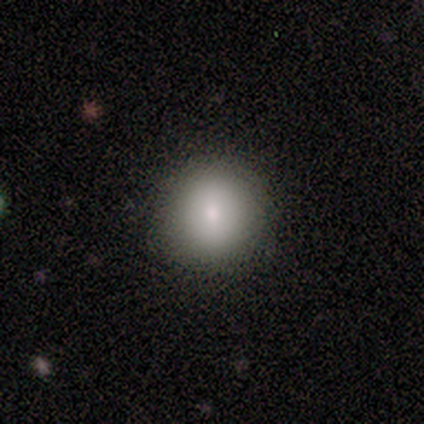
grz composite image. It shows a smooth galaxy with no disk features (80%) that is round (100%). Merging: none (100%).